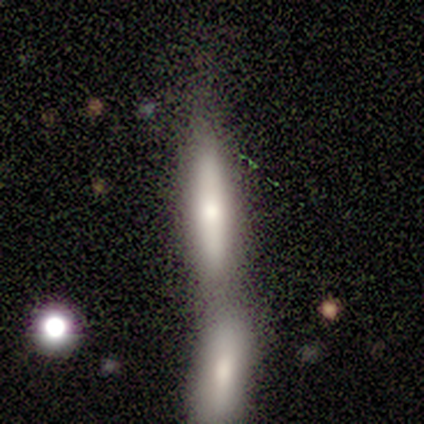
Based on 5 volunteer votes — This is clearly a smooth galaxy (100%). How rounded: clearly cigar-shaped (100%). Merging: clearly merger (80%).